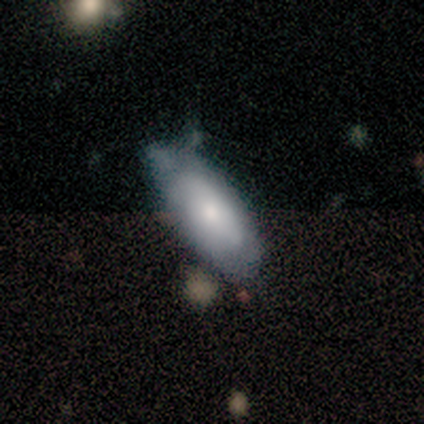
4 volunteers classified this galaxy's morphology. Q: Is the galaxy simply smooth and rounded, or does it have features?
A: smooth — 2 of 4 (50%, tied with featured or disk).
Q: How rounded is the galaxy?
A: in between — 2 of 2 (100%).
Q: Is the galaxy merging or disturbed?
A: none — 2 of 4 (50%).